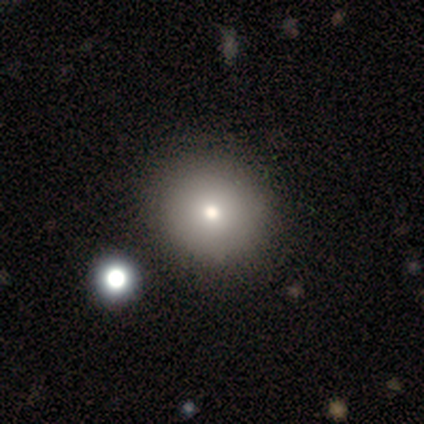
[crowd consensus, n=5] Volunteers were most divided on "merging": none: 80%, minor disturbance: 20%, major disturbance: 0%, merger: 0%. More confident: smooth or featured — smooth (100%); how rounded — round (100%).